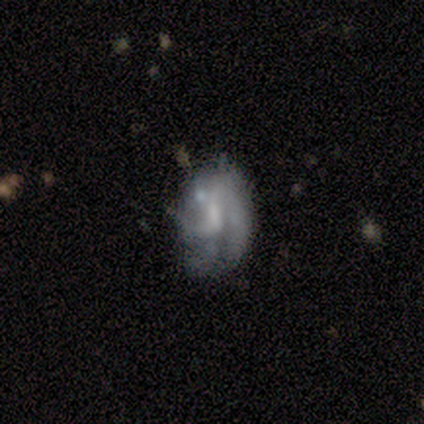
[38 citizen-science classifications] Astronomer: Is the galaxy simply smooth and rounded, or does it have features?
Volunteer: featured or disk — 63%.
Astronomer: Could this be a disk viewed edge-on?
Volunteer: no — 96%.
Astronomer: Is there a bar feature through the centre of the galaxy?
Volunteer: weak — 61%.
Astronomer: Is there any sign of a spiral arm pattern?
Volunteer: yes — 65%.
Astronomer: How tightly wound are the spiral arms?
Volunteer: medium — 40%, tied with loose at 40%.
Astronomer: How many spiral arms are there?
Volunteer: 2 — 33% (runner-up: 1, 27%).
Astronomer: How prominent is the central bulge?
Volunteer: none — 43% (runner-up: small, 39%).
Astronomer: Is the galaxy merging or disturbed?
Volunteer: none — 49%.